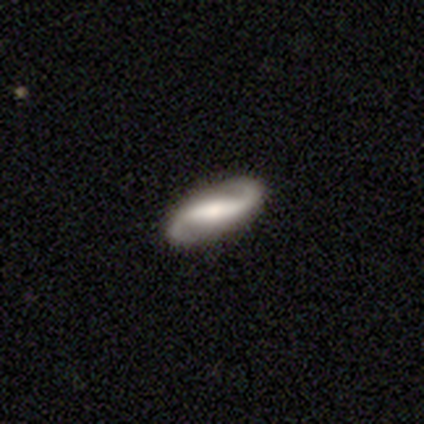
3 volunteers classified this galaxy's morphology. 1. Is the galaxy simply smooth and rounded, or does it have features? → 100% featured or disk, 0% smooth, 0% star or artifact.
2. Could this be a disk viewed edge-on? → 100% no, 0% yes.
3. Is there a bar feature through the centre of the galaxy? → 33% strong (tied), 33% weak (tied), 33% no (tied).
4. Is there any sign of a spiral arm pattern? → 100% yes, 0% no.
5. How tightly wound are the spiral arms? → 67% loose, 33% medium, 0% tight.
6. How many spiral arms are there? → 100% 2, 0% 1, 0% 3, 0% 4, 0% more than 4, 0% can't tell.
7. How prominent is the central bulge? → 67% moderate, 33% large, 0% dominant, 0% small, 0% none.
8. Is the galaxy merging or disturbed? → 67% none, 33% minor disturbance, 0% major disturbance, 0% merger.